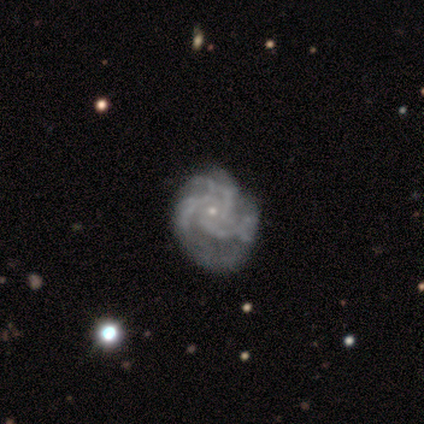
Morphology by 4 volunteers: Smooth or featured: featured or disk — 75% (star or artifact — 25%)
Edge-on disk: no — 100%
Bar: no — 67% (strong — 33%)
Spiral arms: yes — 100%
Spiral winding: tight — 67% (medium — 33%)
Spiral arm count: 3 — 67% (more than 4 — 33%)
Bulge size: small — 100%
Merging: none — 100%